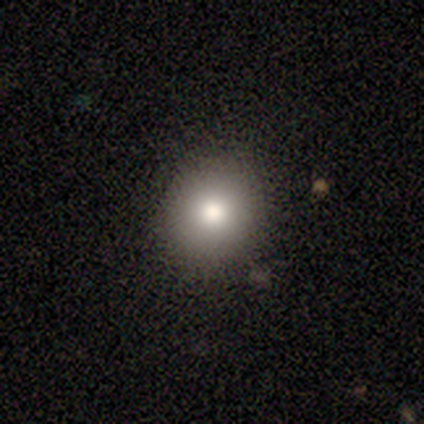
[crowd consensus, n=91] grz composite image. It shows a smooth galaxy with no disk features (79%) that is round (89%). Merging: none (96%).